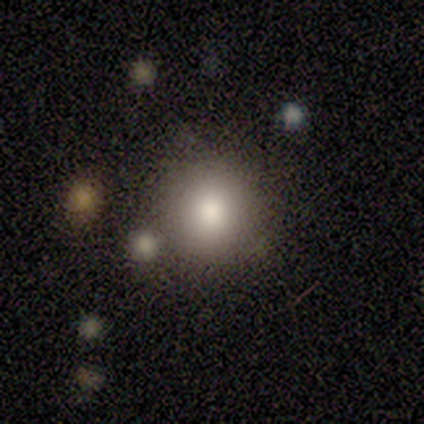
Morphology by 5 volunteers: This is likely a smooth galaxy (60%). How rounded: likely round (67%). Merging: likely minor disturbance (67%).